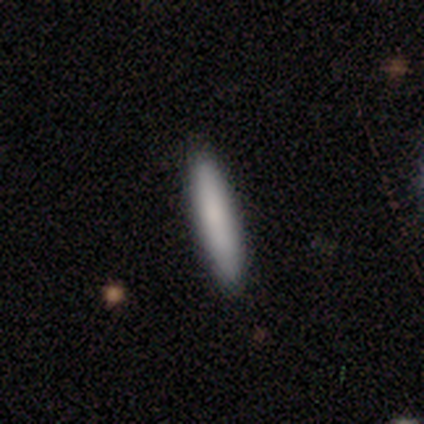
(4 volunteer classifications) This is likely a smooth galaxy (75%). How rounded: clearly cigar-shaped (100%). Merging: clearly none (100%).